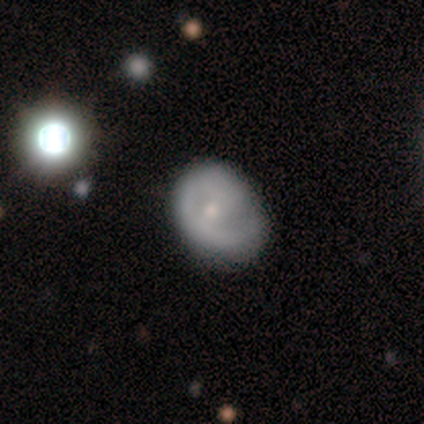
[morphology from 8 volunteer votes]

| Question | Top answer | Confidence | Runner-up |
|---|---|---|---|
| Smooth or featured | featured or disk | 62% | smooth (25%) |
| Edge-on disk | no | 100% | — |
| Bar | weak | 40% | tied: no (40%) |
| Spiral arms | no | 60% | yes (40%) |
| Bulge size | small | 60% | moderate (40%) |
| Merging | none | 86% | minor disturbance (14%) |